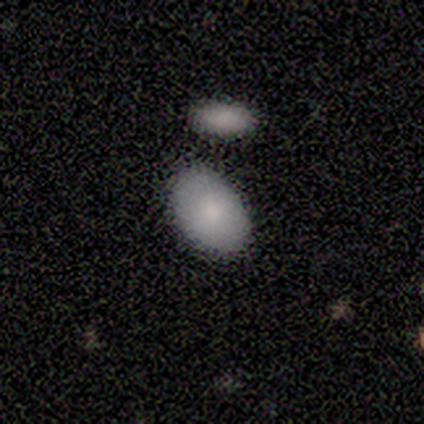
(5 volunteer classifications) This is clearly a smooth galaxy (80%). How rounded: clearly in between (100%). Merging: clearly none (80%).